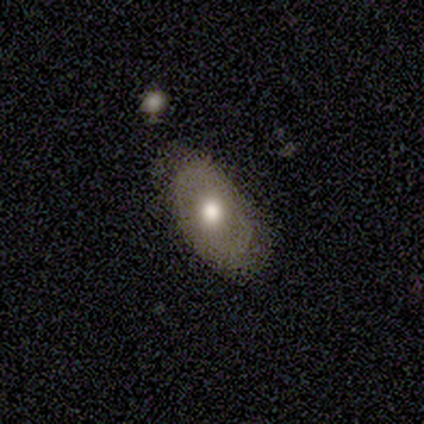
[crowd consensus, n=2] Smooth or featured? 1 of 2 (50%, tied with featured or disk) said smooth. How rounded? 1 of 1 (100%) said in between. Merging? 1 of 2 (50%, tied with minor disturbance) said none.